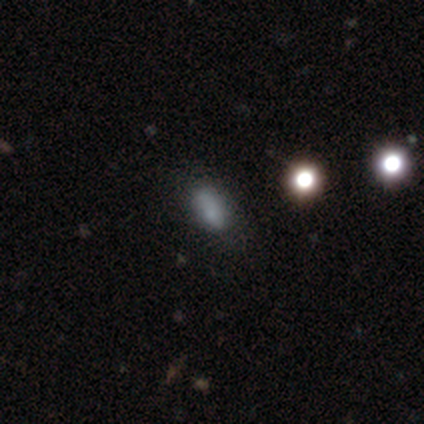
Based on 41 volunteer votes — Q: Smooth or featured?
A: smooth (78%); runner-up: star or artifact (12%)
Q: How rounded?
A: in between (78%); runner-up: cigar-shaped (12%)
Q: Merging?
A: none (50%); runner-up: minor disturbance (31%)